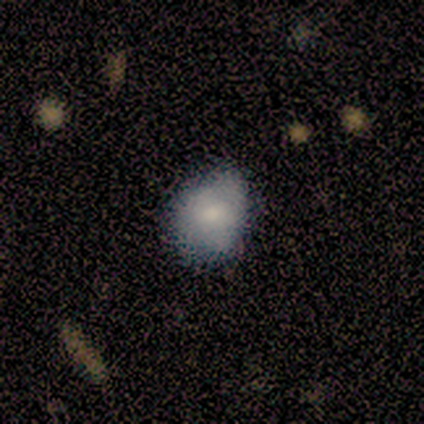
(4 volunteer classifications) Q: Smooth or featured?
A: smooth (100%)
Q: How rounded?
A: round (75%); runner-up: in between (25%)
Q: Merging?
A: none (75%); runner-up: minor disturbance (25%)